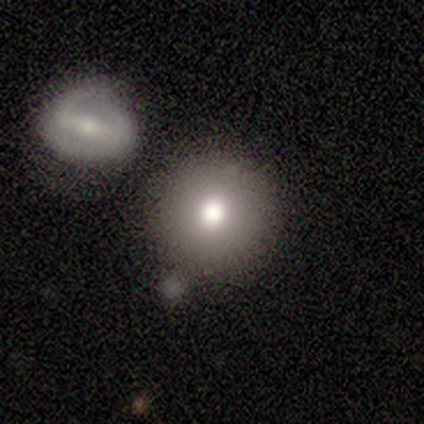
smooth_or_featured: smooth (p=0.82) [alt: featured or disk p=0.10]
how_rounded: round (p=0.94) [alt: in between p=0.06]
merging: none (p=0.42) [alt: merger p=0.23]